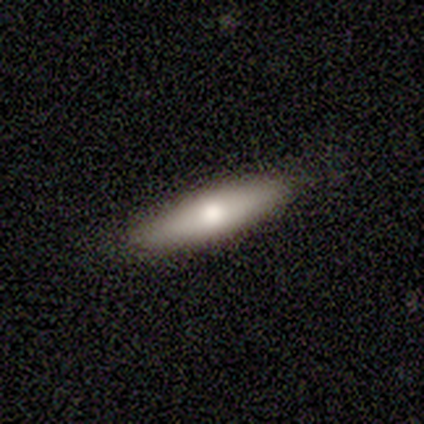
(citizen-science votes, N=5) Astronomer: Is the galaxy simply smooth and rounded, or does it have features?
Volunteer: featured or disk — 60% (runner-up: smooth, 40%).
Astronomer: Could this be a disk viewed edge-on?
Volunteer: yes — 100%.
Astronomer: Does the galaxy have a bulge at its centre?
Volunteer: rounded — 100%.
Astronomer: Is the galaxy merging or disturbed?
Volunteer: none — 100%.